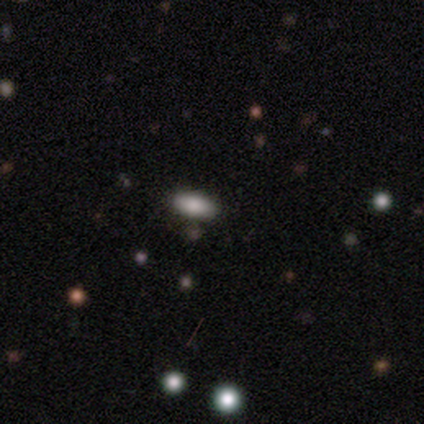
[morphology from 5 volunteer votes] Smooth or featured: smooth — 60% (star or artifact — 40%)
How rounded: in between — 100%
Merging: none — 100%